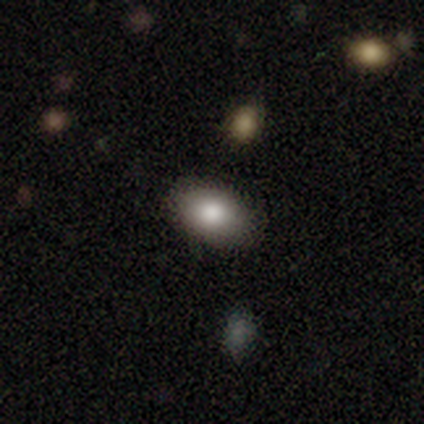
Smooth or featured: smooth — 100%
How rounded: in between — 100%
Merging: none — 100%